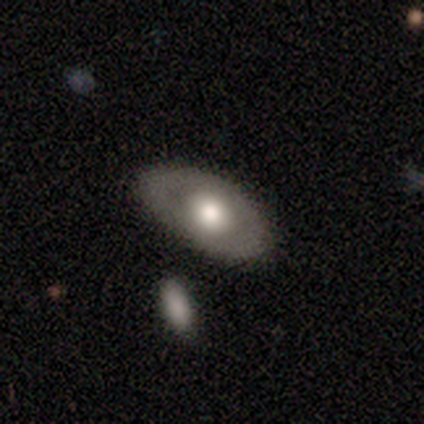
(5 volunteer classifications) smooth_or_featured: smooth (p=1.00)
how_rounded: in between (p=1.00)
merging: none (p=0.80) [alt: minor disturbance p=0.20]